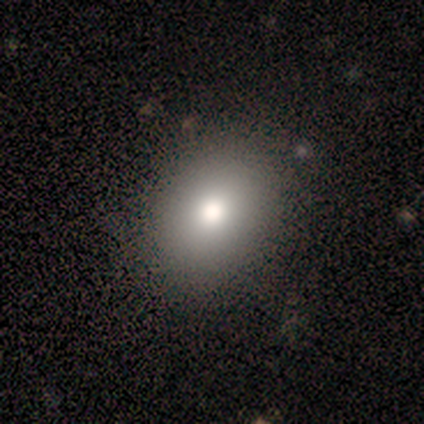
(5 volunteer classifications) Overall: smooth (60%; featured or disk 40%). How rounded: round (67%; in between 33%). Merging: none (100%).